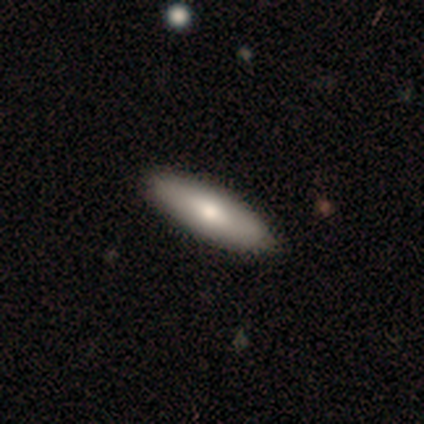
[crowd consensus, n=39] smooth-or-featured: smooth: 62% | featured or disk: 36% | star or artifact: 3%
  how-rounded: in between: 50% (tied) | cigar-shaped: 50% (tied) | round: 0%
  merging: none: 66% | minor disturbance: 5% | merger: 5% | major disturbance: 0%